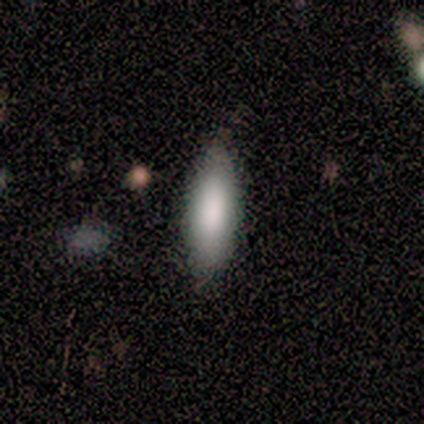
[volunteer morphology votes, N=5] smooth_or_featured: smooth (p=1.00)
how_rounded: in between (p=1.00)
merging: none (p=1.00)